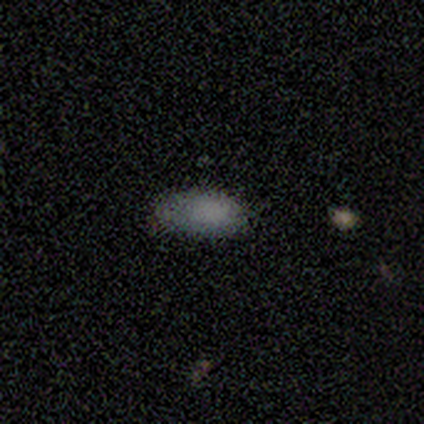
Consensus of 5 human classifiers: Smooth or featured?
  - smooth: 60% *
  - star or artifact: 40%
  - featured or disk: 0%
How rounded?
  - in between: 100% *
  - round: 0%
  - cigar-shaped: 0%
Merging?
  - none: 67% *
  - merger: 33%
  - minor disturbance: 0%
  - major disturbance: 0%